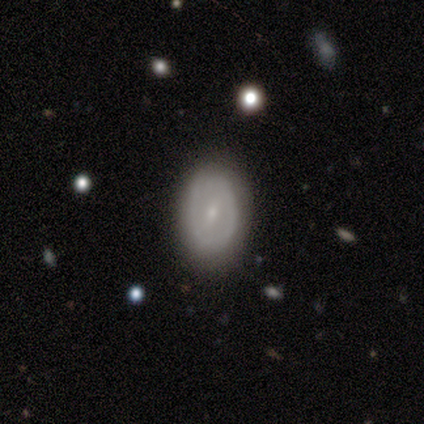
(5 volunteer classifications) Overall: featured or disk (60%; smooth 40%). Edge-on disk: no (100%). Bar: strong (67%; weak 33%). Spiral arms: no (100%). Bulge size: small (100%). Merging: none (100%).